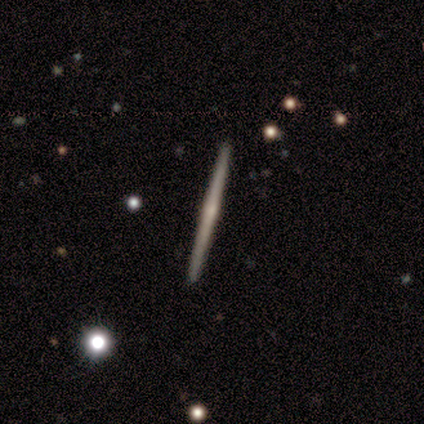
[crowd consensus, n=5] Overall: featured or disk (80%). Edge-on disk: yes (100%). Edge-on bulge: rounded (75%). Merging: none (100%).